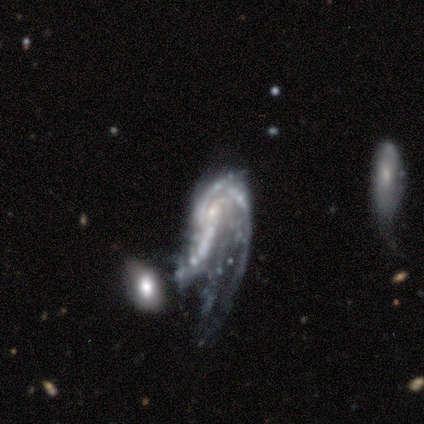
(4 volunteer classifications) smooth_or_featured: featured or disk (p=1.00)
disk_edge_on: no (p=1.00)
bar: no (p=0.50) [alt: strong p=0.25]
has_spiral_arms: yes (p=1.00)
spiral_winding: medium (p=0.75) [alt: tight p=0.25]
spiral_arm_count: 3 (p=0.50) [alt: 2 p=0.25]
bulge_size: small (p=1.00)
merging: major disturbance (p=0.75) [alt: merger p=0.25]